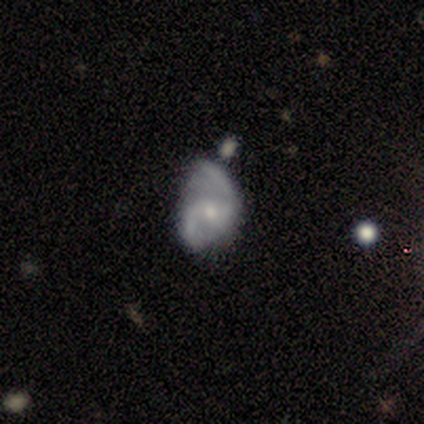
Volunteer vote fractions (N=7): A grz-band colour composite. It shows a featured or disk galaxy (86%) with no bar (67%), 2 (83%) medium (50%, tied with loose) spiral arms (100%) and a small central bulge (83%). Merging: none (57%).